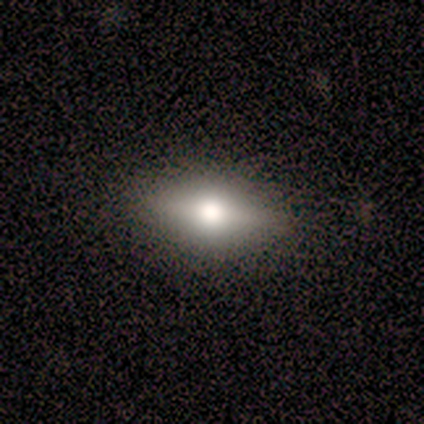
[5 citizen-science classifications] Volunteers were most divided on "smooth or featured": featured or disk: 60%, smooth: 40%, star or artifact: 0%. More confident: edge-on disk — yes (100%); edge-on bulge — rounded (100%); merging — none (100%).